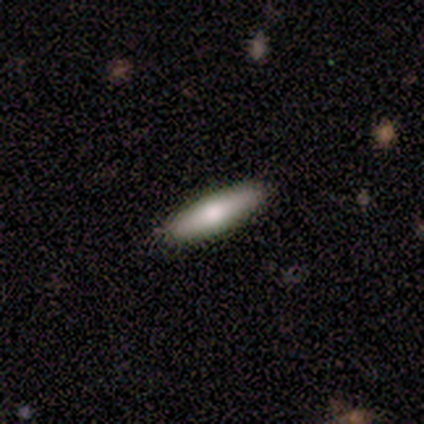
Q: Smooth or featured?
A: smooth (100%)
Q: How rounded?
A: cigar-shaped (80%); runner-up: in between (20%)
Q: Merging?
A: none (70%); runner-up: minor disturbance (20%)